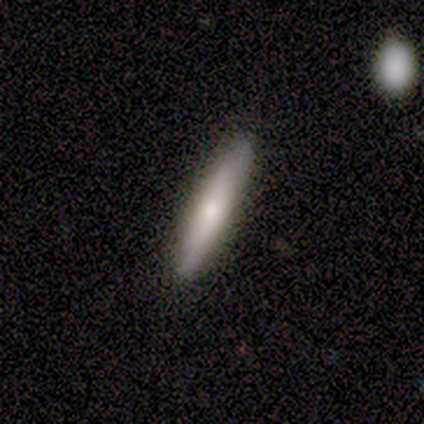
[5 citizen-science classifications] smooth-or-featured: smooth: 80% | star or artifact: 20% | featured or disk: 0%
  how-rounded: cigar-shaped: 100% | round: 0% | in between: 0%
  merging: none: 75% | minor disturbance: 25% | major disturbance: 0% | merger: 0%